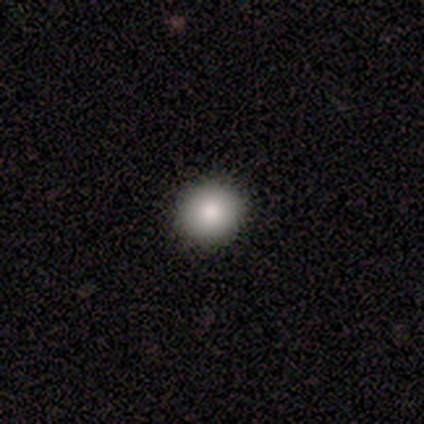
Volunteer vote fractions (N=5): A smooth galaxy with no disk features (60%) that is round (100%). Merging: none (100%).